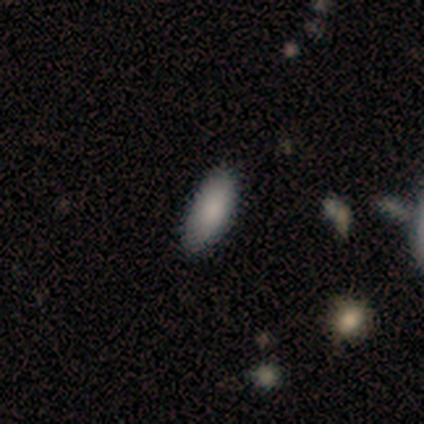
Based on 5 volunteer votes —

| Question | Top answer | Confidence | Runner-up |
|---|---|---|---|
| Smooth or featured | smooth | 60% | featured or disk (40%) |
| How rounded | in between | 100% | — |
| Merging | none | 80% | minor disturbance (20%) |